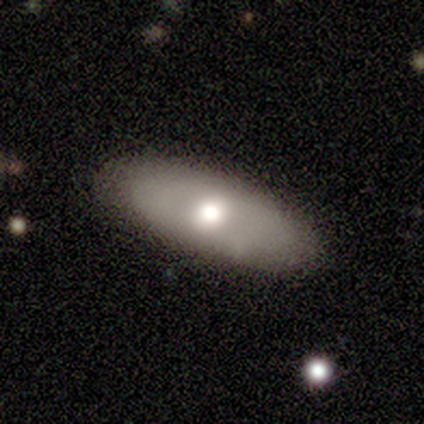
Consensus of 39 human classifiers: This appears to be a smooth galaxy with no disk features (59%) that is cigar-shaped (52%). Merging: none (87%).